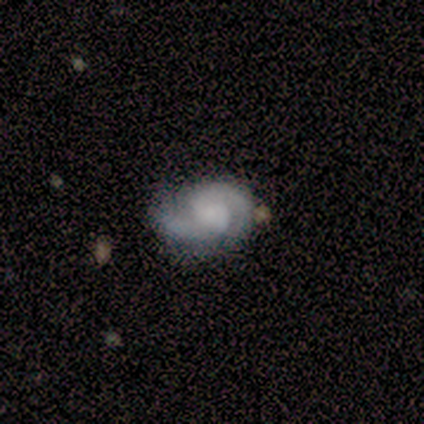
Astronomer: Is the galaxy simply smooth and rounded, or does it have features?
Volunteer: featured or disk — 100%.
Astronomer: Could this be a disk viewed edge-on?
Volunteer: no — 100%.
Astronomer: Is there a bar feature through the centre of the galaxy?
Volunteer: no — 60% (runner-up: weak, 40%).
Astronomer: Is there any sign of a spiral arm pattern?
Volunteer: yes — 80%.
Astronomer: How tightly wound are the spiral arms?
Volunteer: medium — 50%.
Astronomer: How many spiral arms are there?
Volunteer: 2 — 100%.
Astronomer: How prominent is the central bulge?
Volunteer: small — 60% (runner-up: none, 40%).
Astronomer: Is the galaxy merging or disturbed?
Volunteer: none — 80%.